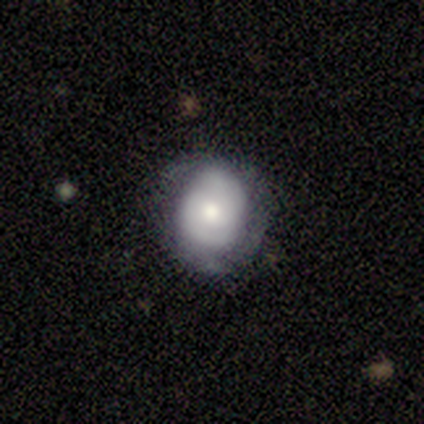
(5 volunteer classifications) Overall: featured or disk (60%; smooth 40%). Edge-on disk: no (100%). Bar: no (100%). Spiral arms: yes (100%). Spiral arm count: can't tell (67%; 2 33%). Spiral winding: tight (100%). Bulge size: dominant (33%, tied with moderate and small). Merging: none (40%, tied with major disturbance).